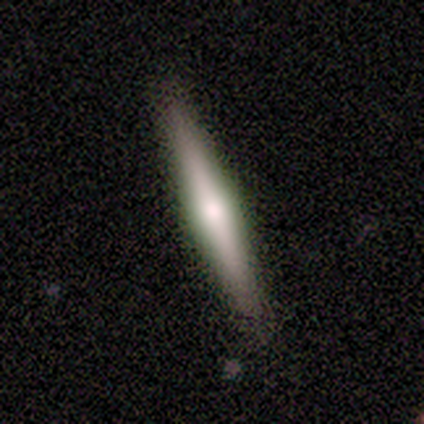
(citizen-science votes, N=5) smooth-or-featured: smooth: 60% | featured or disk: 40% | star or artifact: 0%
  how-rounded: cigar-shaped: 100% | round: 0% | in between: 0%
  merging: none: 80% | merger: 20% | minor disturbance: 0% | major disturbance: 0%